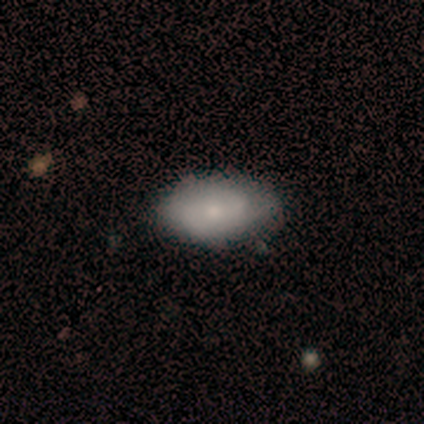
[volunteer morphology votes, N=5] Q: Smooth or featured?
A: smooth (100%)
Q: How rounded?
A: in between (100%)
Q: Merging?
A: none (60%); runner-up: minor disturbance (40%)